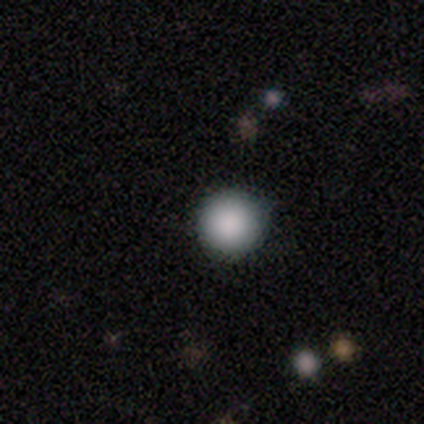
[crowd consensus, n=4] smooth-or-featured: smooth: 75% | star or artifact: 25% | featured or disk: 0%
  how-rounded: round: 100% | in between: 0% | cigar-shaped: 0%
  merging: none: 100% | minor disturbance: 0% | major disturbance: 0% | merger: 0%